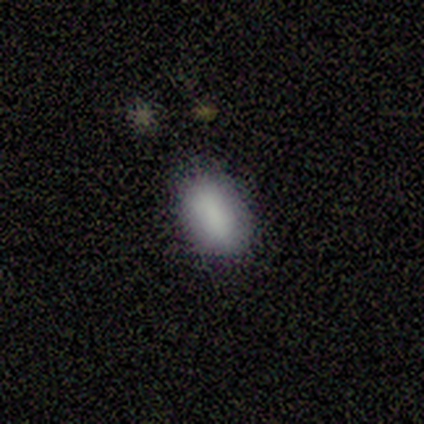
Overall: smooth (100%). How rounded: in between (60%; round 40%). Merging: none (60%; minor disturbance 20%).